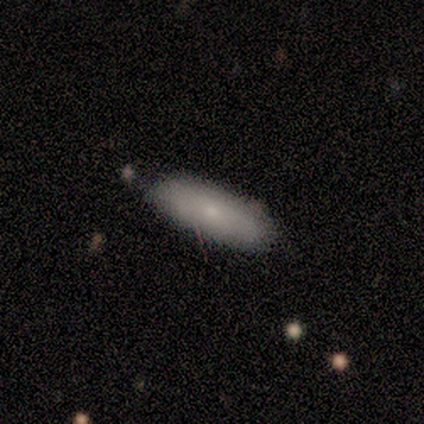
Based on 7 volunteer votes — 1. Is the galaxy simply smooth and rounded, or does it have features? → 86% smooth, 14% featured or disk, 0% star or artifact.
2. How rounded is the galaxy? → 67% in between, 33% cigar-shaped, 0% round.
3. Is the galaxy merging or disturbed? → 86% none, 14% minor disturbance, 0% major disturbance, 0% merger.